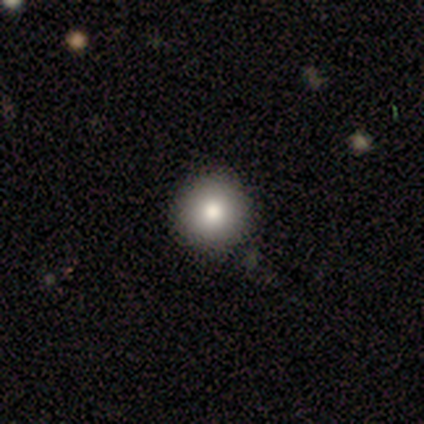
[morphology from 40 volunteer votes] A smooth galaxy with no disk features (70%) that is round (93%). Merging: none (91%).